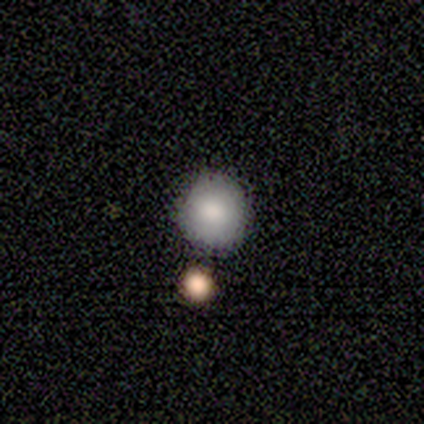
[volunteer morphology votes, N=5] Q: Smooth or featured?
A: smooth (80%); runner-up: star or artifact (20%)
Q: How rounded?
A: round (100%)
Q: Merging?
A: none (100%)